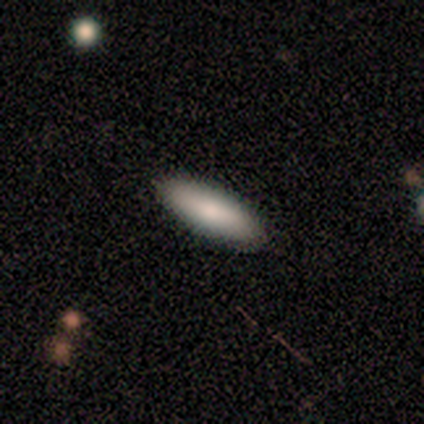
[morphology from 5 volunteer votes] Volunteers were most divided on "how rounded": cigar-shaped: 60%, in between: 40%, round: 0%. More confident: smooth or featured — smooth (100%); merging — none (100%).